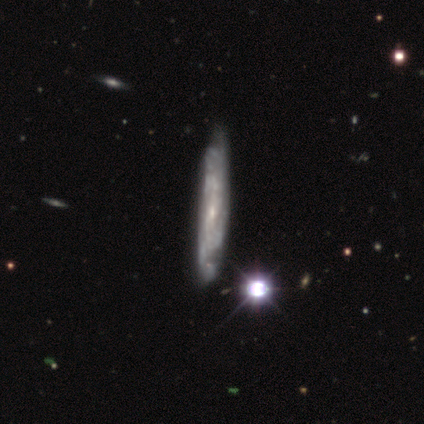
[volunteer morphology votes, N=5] type=featured or disk (100%); edge-on=no (60%); bar=weak (67%); spiral arms=yes (100%); winding=tight (67%); arm count=can't tell (67%); bulge=small (67%); merging=none (60%).